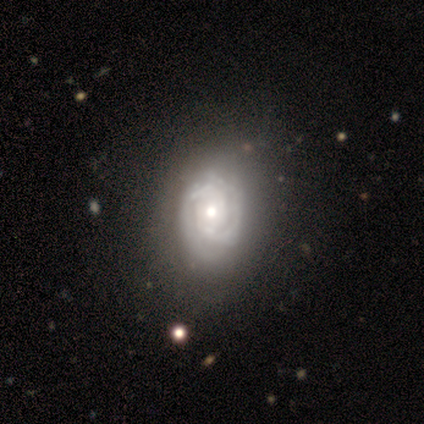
smooth-or-featured: featured or disk: 80% | smooth: 20% | star or artifact: 0%
  disk-edge-on: no: 100% | yes: 0%
    bar: no: 100% | strong: 0% | weak: 0%
    has-spiral-arms: yes: 100% | no: 0%
      spiral-winding: tight: 100% | medium: 0% | loose: 0%
      spiral-arm-count: 2: 50% (tied) | can't tell: 50% (tied) | 1: 0% | 3: 0% | 4: 0% | more than 4: 0%
    bulge-size: moderate: 75% | large: 25% | dominant: 0% | small: 0% | none: 0%
  merging: none: 80% | merger: 20% | minor disturbance: 0% | major disturbance: 0%